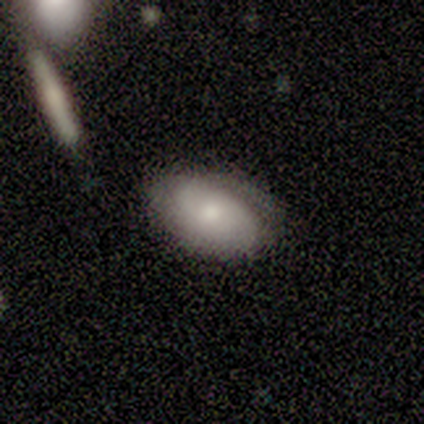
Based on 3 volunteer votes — Smooth or featured? smooth (67%)
How rounded? in between (100%)
Merging? none (33%, tied with minor disturbance and major disturbance)